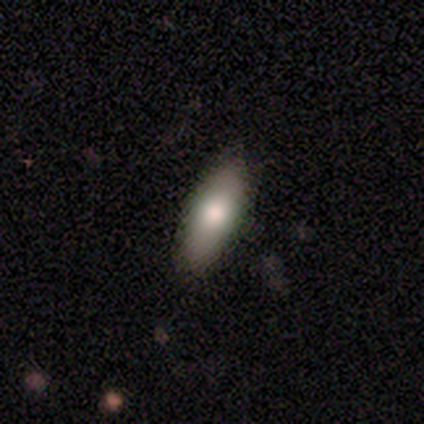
This appears to be a smooth galaxy with no disk features (81%) that is in between round and cigar-shaped (68%). Merging: none (82%).